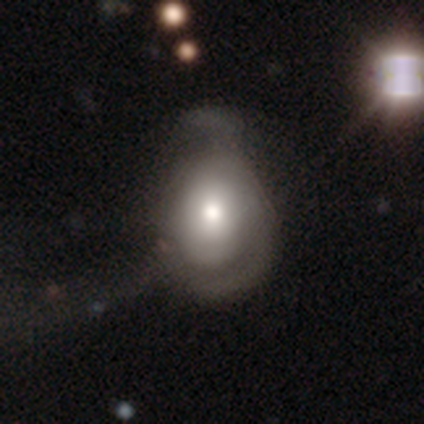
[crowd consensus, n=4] Smooth or featured? featured or disk (75%)
Edge-on disk? no (100%)
Bar? no (100%)
Spiral arms? no (100%)
Bulge size? moderate (100%)
Merging? major disturbance (100%)